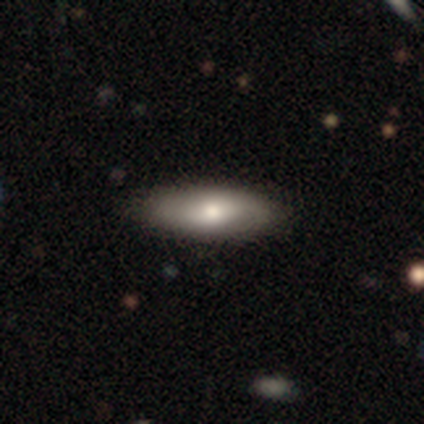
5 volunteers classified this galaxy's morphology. Overall: smooth (60%; featured or disk 40%). How rounded: cigar-shaped (67%; in between 33%). Merging: none (100%).